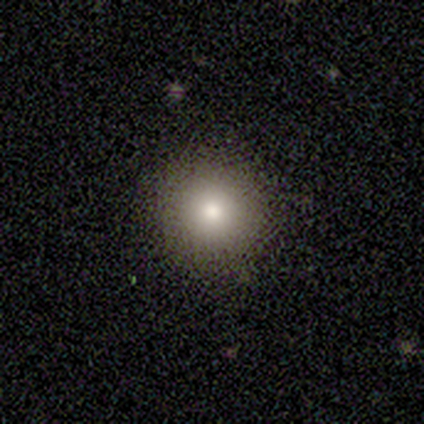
A smooth galaxy with no disk features (60%) that is round (100%). Merging: none (100%).